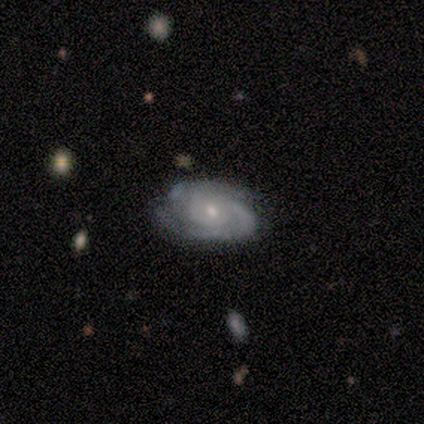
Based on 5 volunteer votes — smooth_or_featured: featured or disk (p=1.00)
disk_edge_on: no (p=1.00)
bar: no (p=1.00)
has_spiral_arms: yes (p=1.00)
spiral_winding: medium (p=0.60) [alt: tight p=0.40]
spiral_arm_count: 2 (p=0.80) [alt: 3 p=0.20]
bulge_size: small (p=1.00)
merging: none (p=1.00)